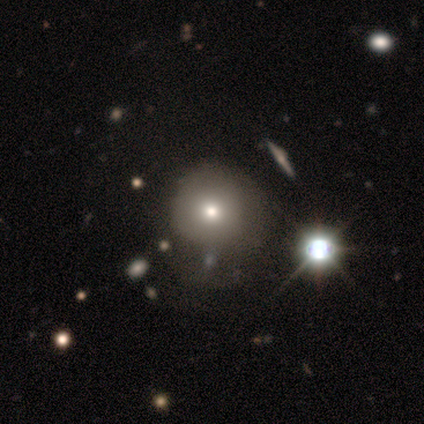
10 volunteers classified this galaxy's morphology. Smooth or featured? smooth (90%)
How rounded? round (100%)
Merging? none (50%)